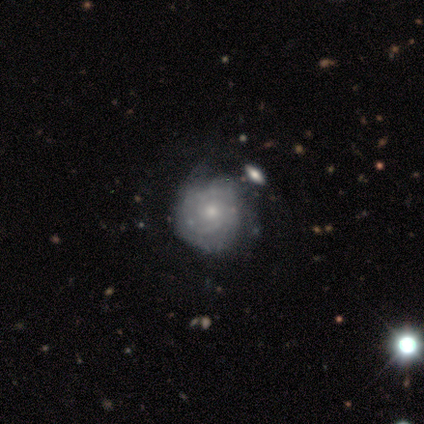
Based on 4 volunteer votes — smooth-or-featured: featured or disk: 100% | smooth: 0% | star or artifact: 0%
  disk-edge-on: no: 100% | yes: 0%
    bar: weak: 50% (tied) | no: 50% (tied) | strong: 0%
    has-spiral-arms: yes: 100% | no: 0%
      spiral-winding: tight: 50% | medium: 25% | loose: 25%
      spiral-arm-count: 3: 50% | 2: 25% | can't tell: 25% | 1: 0% | 4: 0% | more than 4: 0%
    bulge-size: small: 75% | dominant: 25% | large: 0% | moderate: 0% | none: 0%
  merging: none: 75% | minor disturbance: 25% | major disturbance: 0% | merger: 0%